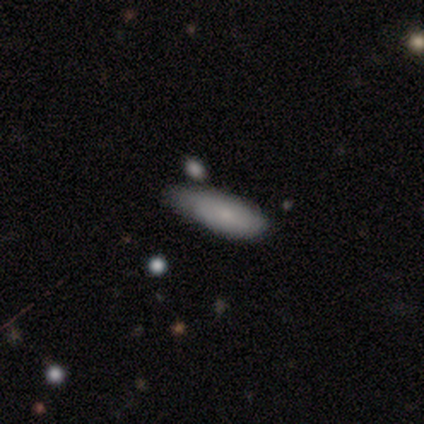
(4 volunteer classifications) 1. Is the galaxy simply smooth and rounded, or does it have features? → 75% smooth, 25% featured or disk, 0% star or artifact.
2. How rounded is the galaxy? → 100% in between, 0% round, 0% cigar-shaped.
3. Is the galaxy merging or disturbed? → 50% none (tied), 50% minor disturbance (tied), 0% major disturbance, 0% merger.